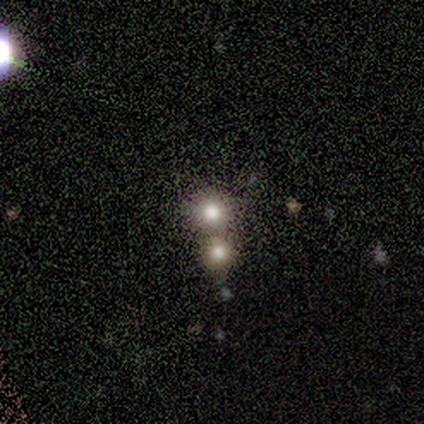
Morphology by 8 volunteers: Smooth or featured? smooth (50%)
How rounded? round (100%)
Merging? none (80%)